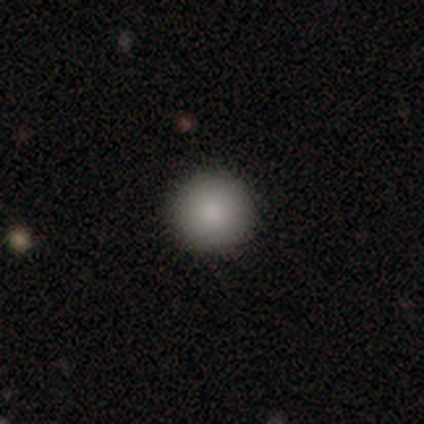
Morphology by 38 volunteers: smooth 79%, featured or disk 13%, star or artifact 8%. Down the decision tree: how rounded — round (97%); merging — none (54%).